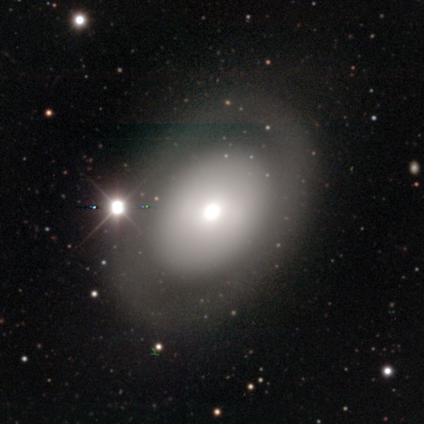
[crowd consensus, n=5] Smooth or featured? 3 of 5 (60%) said smooth. How rounded? 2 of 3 (67%) said in between. Merging? 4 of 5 (80%) said none.